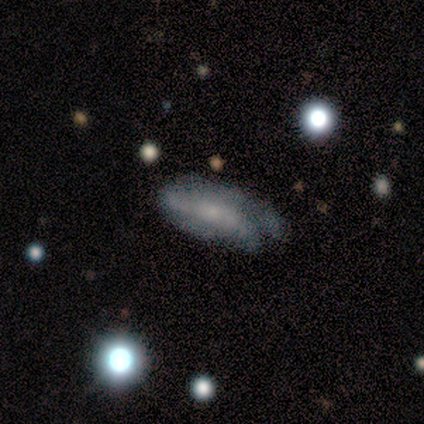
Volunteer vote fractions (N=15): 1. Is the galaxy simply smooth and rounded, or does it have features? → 60% smooth, 27% featured or disk, 13% star or artifact.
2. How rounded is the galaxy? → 78% in between, 22% cigar-shaped, 0% round.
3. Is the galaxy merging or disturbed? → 54% none, 31% major disturbance, 15% minor disturbance, 0% merger.